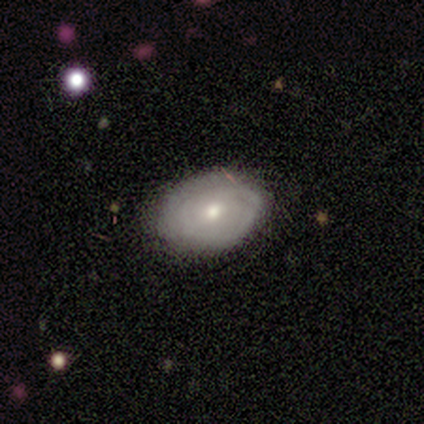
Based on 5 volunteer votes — smooth-or-featured: featured or disk: 60% | smooth: 40% | star or artifact: 0%
  disk-edge-on: no: 100% | yes: 0%
    bar: weak: 67% | no: 33% | strong: 0%
    has-spiral-arms: yes: 67% | no: 33%
      spiral-winding: tight: 100% | medium: 0% | loose: 0%
      spiral-arm-count: 2: 50% (tied) | can't tell: 50% (tied) | 1: 0% | 3: 0% | 4: 0% | more than 4: 0%
    bulge-size: small: 100% | dominant: 0% | large: 0% | moderate: 0% | none: 0%
  merging: none: 100% | minor disturbance: 0% | major disturbance: 0% | merger: 0%